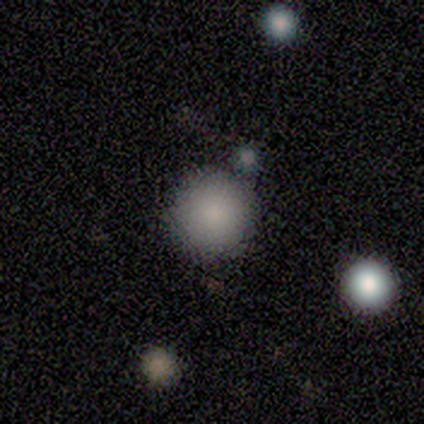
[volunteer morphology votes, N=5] Smooth or featured?
  - smooth: 100% *
  - featured or disk: 0%
  - star or artifact: 0%
How rounded?
  - round: 100% *
  - in between: 0%
  - cigar-shaped: 0%
Merging?
  - none: 100% *
  - minor disturbance: 0%
  - major disturbance: 0%
  - merger: 0%